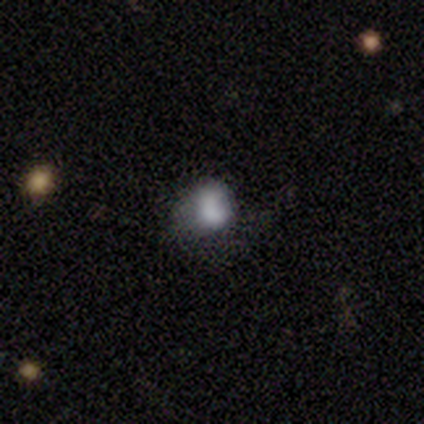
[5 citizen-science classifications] Smooth or featured?
  - smooth: 60% *
  - featured or disk: 20%
  - star or artifact: 20%
How rounded?
  - round: 100% *
  - in between: 0%
  - cigar-shaped: 0%
Merging?
  - none: 75% *
  - minor disturbance: 25%
  - major disturbance: 0%
  - merger: 0%